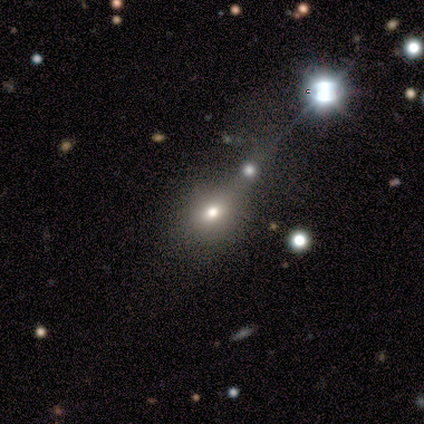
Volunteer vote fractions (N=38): smooth_or_featured: smooth (p=0.66) [alt: star or artifact p=0.21]
how_rounded: round (p=0.68) [alt: in between p=0.28]
merging: none (p=0.57) [alt: merger p=0.17]